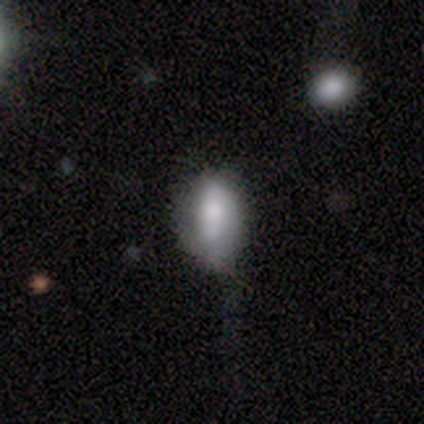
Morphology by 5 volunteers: smooth 40% (tied), featured or disk 40% (tied), star or artifact 20%. Down the decision tree: how rounded — in between (100%); merging — minor disturbance (50%, tied with major disturbance).